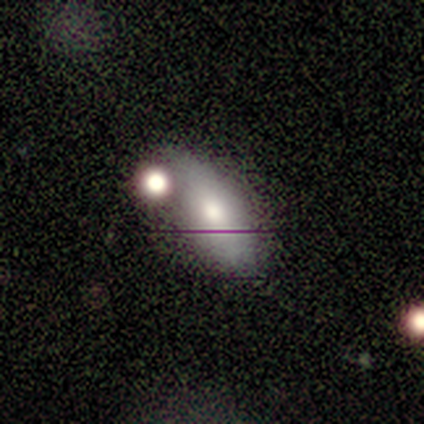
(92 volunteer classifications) Smooth or featured? smooth (75%)
How rounded? in between (86%)
Merging? none (43%)